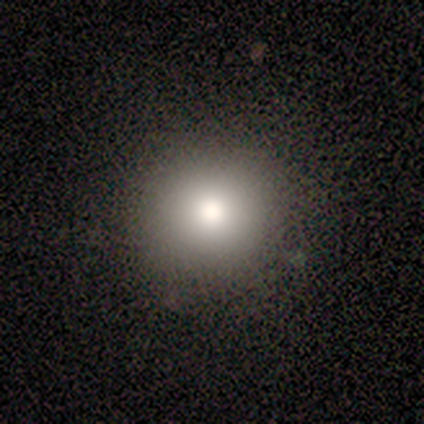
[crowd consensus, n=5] Smooth or featured: smooth — 60% (featured or disk — 20%)
How rounded: round — 100%
Merging: none — 75% (minor disturbance — 25%)